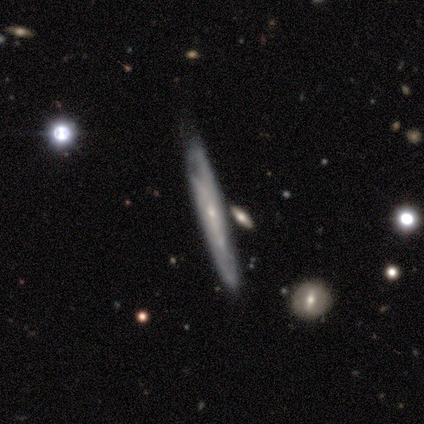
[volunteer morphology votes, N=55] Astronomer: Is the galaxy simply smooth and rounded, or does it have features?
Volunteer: featured or disk — 69%.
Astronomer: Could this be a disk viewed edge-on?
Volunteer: yes — 63%.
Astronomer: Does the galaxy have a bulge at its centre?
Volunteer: rounded — 58%.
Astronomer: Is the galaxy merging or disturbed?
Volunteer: none — 60%.